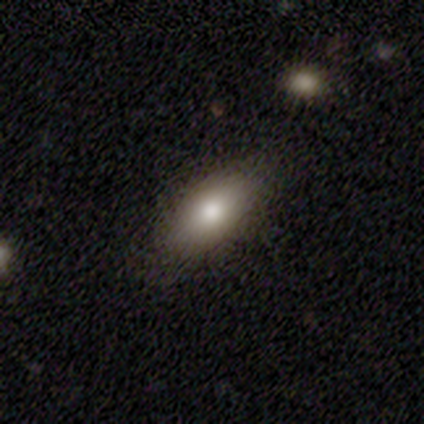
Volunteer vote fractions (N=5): smooth-or-featured: smooth: 100% | featured or disk: 0% | star or artifact: 0%
  how-rounded: in between: 60% | round: 20% | cigar-shaped: 20%
  merging: none: 80% | minor disturbance: 20% | major disturbance: 0% | merger: 0%